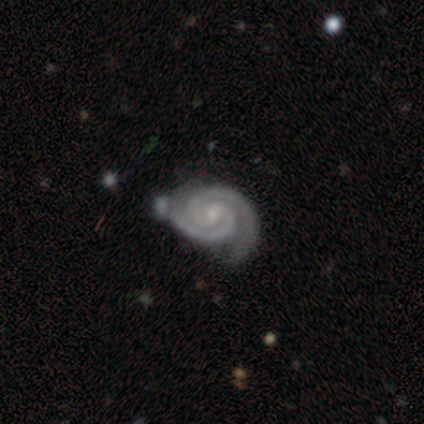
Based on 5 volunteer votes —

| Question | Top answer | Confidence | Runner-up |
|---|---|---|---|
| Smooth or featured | featured or disk | 100% | — |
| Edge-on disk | no | 100% | — |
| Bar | weak | 60% | no (40%) |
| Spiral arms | yes | 100% | — |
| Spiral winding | tight | 80% | loose (20%) |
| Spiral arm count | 2 | 100% | — |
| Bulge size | small | 80% | moderate (20%) |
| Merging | none | 60% | major disturbance (20%) |